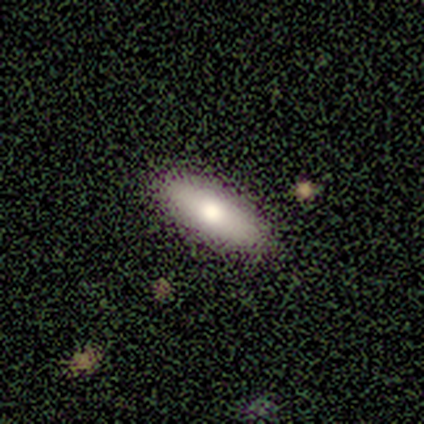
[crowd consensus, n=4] A smooth galaxy with no disk features (75%) that is in between round and cigar-shaped (67%). Merging: none (100%).